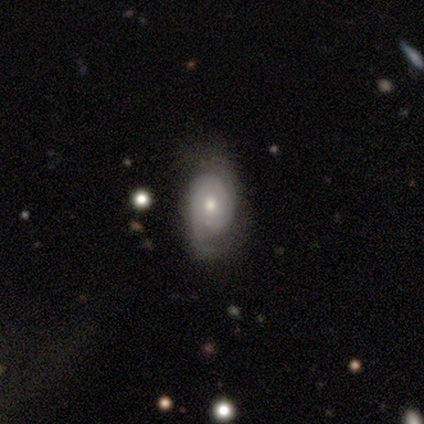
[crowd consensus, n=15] featured or disk 93%, smooth 7%, star or artifact 0%. Down the decision tree: edge-on disk — no (100%); bar — no (93%); spiral arms — yes (86%); spiral arm count — 2 (58%); spiral winding — tight (42%, tied with medium); bulge size — moderate (50%); merging — none (80%).